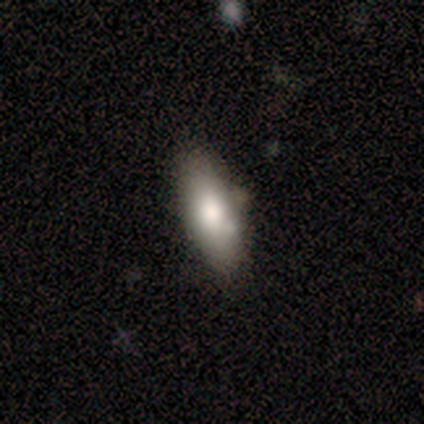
Smooth or featured? 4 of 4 (100%) said smooth. How rounded? 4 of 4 (100%) said in between. Merging? 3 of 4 (75%) said none.